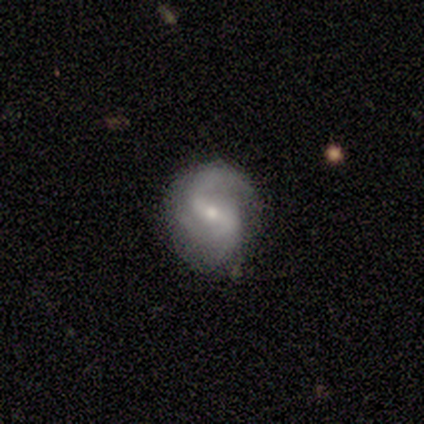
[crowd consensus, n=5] smooth_or_featured: featured or disk (p=1.00)
disk_edge_on: no (p=1.00)
bar: weak (p=1.00)
has_spiral_arms: yes (p=1.00)
spiral_winding: medium (p=0.60) [alt: tight p=0.20]
spiral_arm_count: 2 (p=0.80) [alt: 3 p=0.20]
bulge_size: small (p=0.80) [alt: moderate p=0.20]
merging: none (p=0.80) [alt: minor disturbance p=0.20]